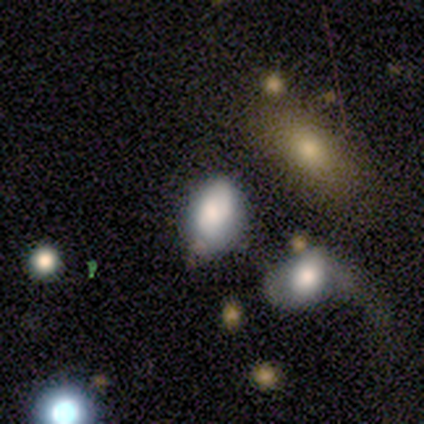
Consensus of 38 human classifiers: Q: Smooth or featured?
A: smooth (66%); runner-up: featured or disk (24%)
Q: How rounded?
A: in between (84%); runner-up: round (16%)
Q: Merging?
A: none (50%); runner-up: minor disturbance (21%)